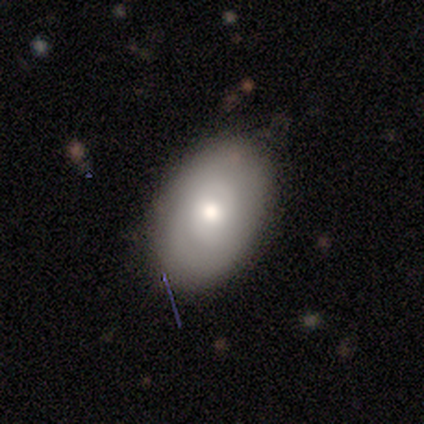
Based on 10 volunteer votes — Smooth or featured: smooth — 50% (tied with featured or disk — 50%)
How rounded: in between — 100%
Merging: none — 80% (minor disturbance — 20%)